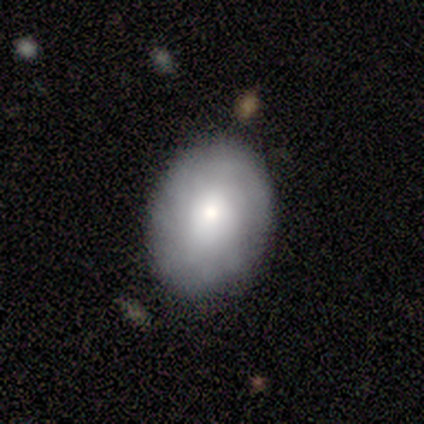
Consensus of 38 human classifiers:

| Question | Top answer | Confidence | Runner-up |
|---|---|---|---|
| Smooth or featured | smooth | 58% | featured or disk (26%) |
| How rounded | in between | 77% | round (23%) |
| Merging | none | 78% | minor disturbance (9%) |